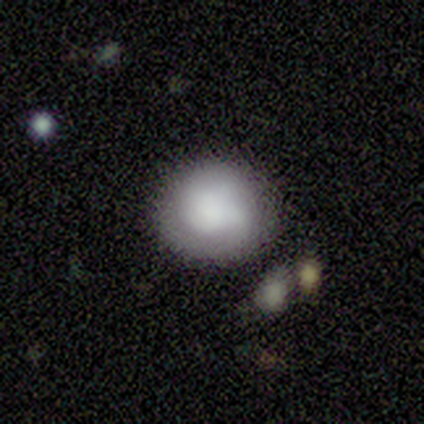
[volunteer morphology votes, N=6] Smooth or featured: smooth — 50% (tied with featured or disk — 50%)
How rounded: round — 100%
Merging: none — 83% (minor disturbance — 17%)